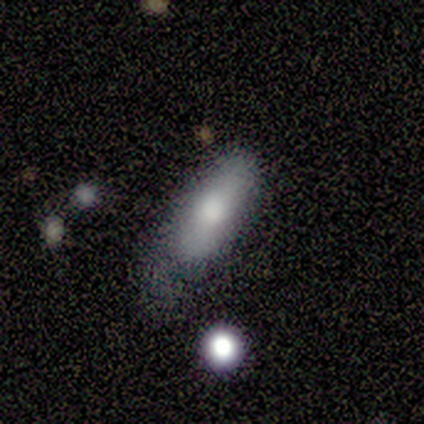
Q: Smooth or featured?
A: smooth (80%); runner-up: featured or disk (20%)
Q: How rounded?
A: in between (75%); runner-up: cigar-shaped (25%)
Q: Merging?
A: none (60%); runner-up: minor disturbance (40%)